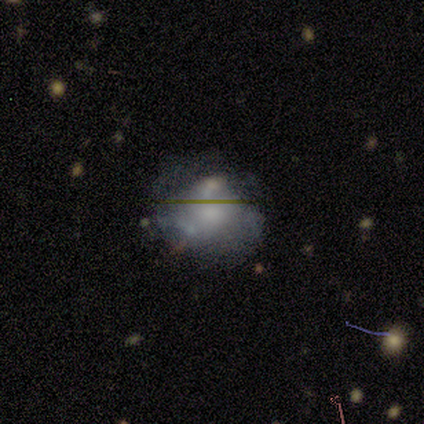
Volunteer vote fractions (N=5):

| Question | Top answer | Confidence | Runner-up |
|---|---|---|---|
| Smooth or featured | smooth | 80% | featured or disk (20%) |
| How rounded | round | 50% | tied: in between (50%) |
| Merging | none | 80% | major disturbance (20%) |